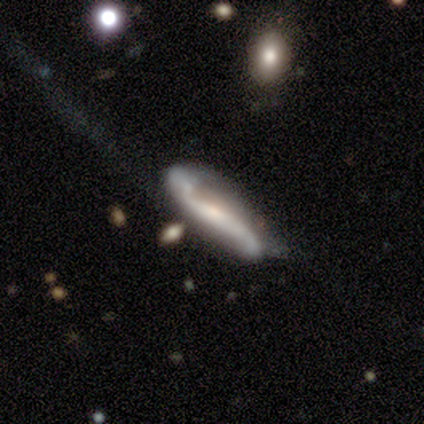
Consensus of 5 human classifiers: This appears to be a featured or disk galaxy (60%) with a strong bar (50%, tied with no), 2 (50%, tied with 3) tight (50%, tied with loose) spiral arms (100%) and a small central bulge (50%, tied with none). Merging: none (75%).